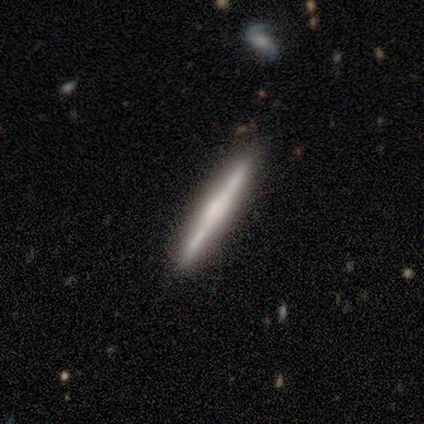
This appears to be a featured or disk galaxy (73%) viewed edge-on (100%) with a boxy central bulge (50%). Merging: none (100%).